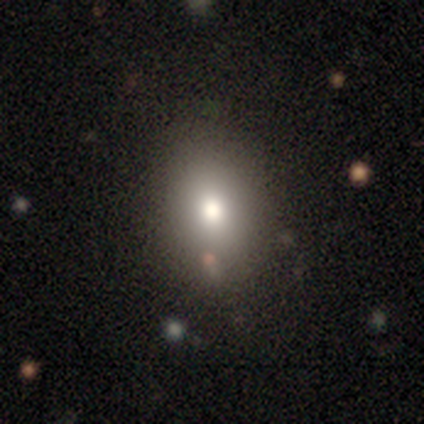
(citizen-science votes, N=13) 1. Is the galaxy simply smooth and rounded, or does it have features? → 77% smooth, 15% star or artifact, 8% featured or disk.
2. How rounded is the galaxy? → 80% in between, 20% round, 0% cigar-shaped.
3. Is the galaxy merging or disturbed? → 91% none, 9% minor disturbance, 0% major disturbance, 0% merger.